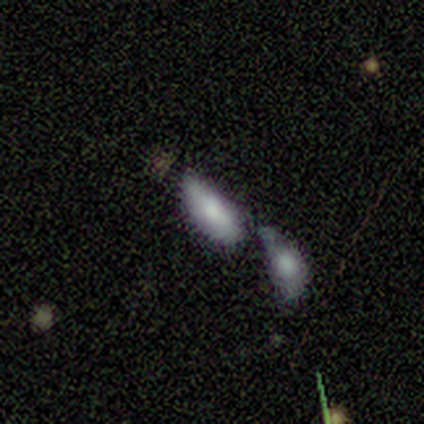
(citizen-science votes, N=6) Smooth or featured? smooth (100%)
How rounded? in between (83%)
Merging? minor disturbance (33%, tied with merger)